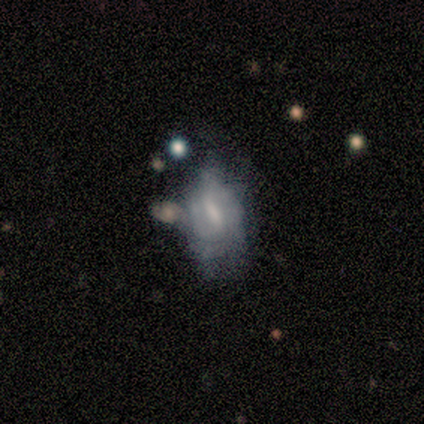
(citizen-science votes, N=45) Morphology: type=featured or disk (60%); edge-on=no (96%); bar=strong (42%); spiral arms=yes (58%); winding=tight (73%); arm count=can't tell (47%); bulge=moderate (31%); merging=minor disturbance (36%).